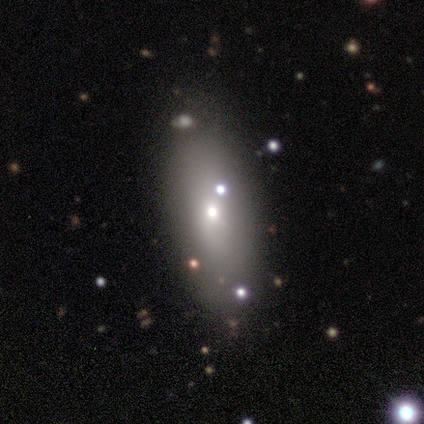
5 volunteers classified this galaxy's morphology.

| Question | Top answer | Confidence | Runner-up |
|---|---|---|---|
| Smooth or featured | smooth | 60% | featured or disk (40%) |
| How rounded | in between | 100% | — |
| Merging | none | 80% | merger (20%) |